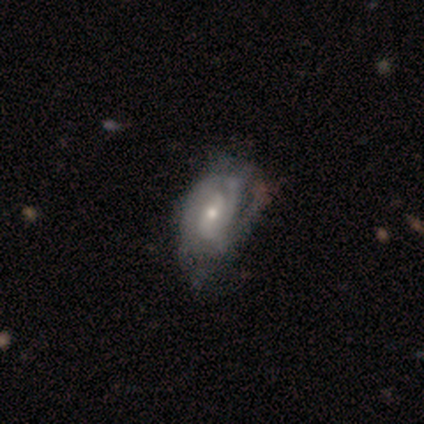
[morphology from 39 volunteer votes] Overall: featured or disk (90%). Edge-on disk: no (97%). Bar: no (47%; weak 44%). Spiral arms: yes (88%). Spiral arm count: can't tell (33%; 2 27%). Spiral winding: tight (43%, tied with medium). Bulge size: small (59%; moderate 38%). Merging: none (28%; major disturbance 26%).